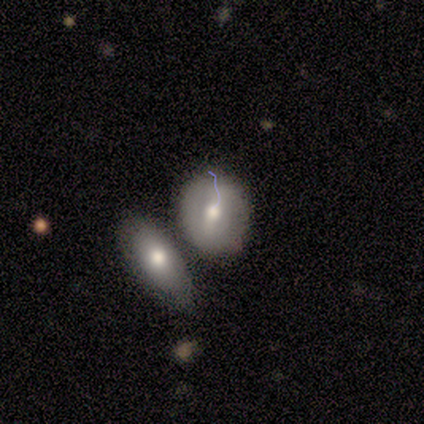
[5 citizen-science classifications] A featured or disk galaxy (60%) with a strong bar (33%, tied with weak and no), no spiral arms (100%) and a moderate central bulge (100%).

Vote fractions:
- Smooth or featured? featured or disk: 60% / smooth: 40% / star or artifact: 0%
- Edge-on disk? no: 100% / yes: 0%
- Bar? strong: 33% (tied) / weak: 33% (tied) / no: 33% (tied)
- Spiral arms? no: 100% / yes: 0%
- Bulge size? moderate: 100% / dominant: 0% / large: 0% / small: 0% / none: 0%
- Merging? merger: 80% / none: 20% / minor disturbance: 0% / major disturbance: 0%